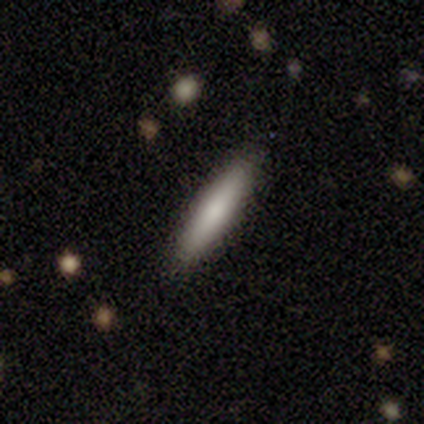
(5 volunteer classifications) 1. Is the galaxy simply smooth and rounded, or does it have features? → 80% smooth, 20% featured or disk, 0% star or artifact.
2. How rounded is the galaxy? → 100% cigar-shaped, 0% round, 0% in between.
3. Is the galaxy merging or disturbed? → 80% none, 20% minor disturbance, 0% major disturbance, 0% merger.